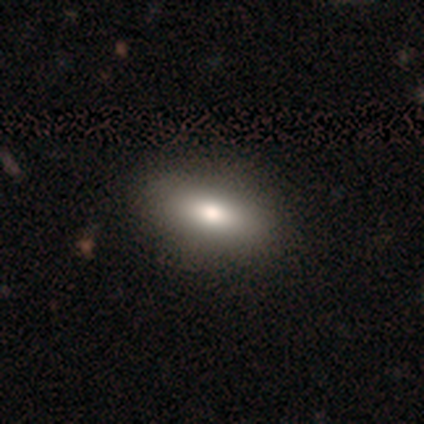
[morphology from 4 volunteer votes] Overall: smooth (50%; featured or disk 25%). How rounded: in between (50%, tied with cigar-shaped). Merging: minor disturbance (67%; none 33%).